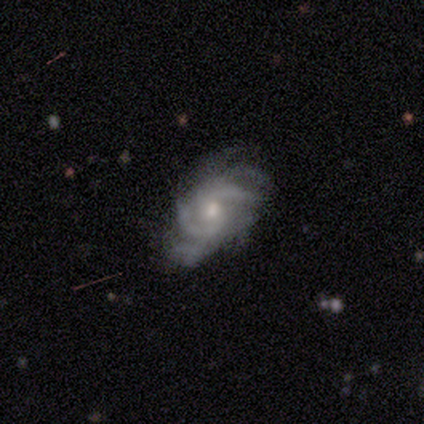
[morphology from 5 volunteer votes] A featured or disk galaxy (100%) with no bar (80%), 2 (60%) medium (40%, tied with loose) spiral arms (100%) and a moderate central bulge (80%).

Vote fractions:
- Smooth or featured? featured or disk: 100% / smooth: 0% / star or artifact: 0%
- Edge-on disk? no: 100% / yes: 0%
- Bar? no: 80% / weak: 20% / strong: 0%
- Spiral arms? yes: 100% / no: 0%
- Spiral winding? medium: 40% (tied) / loose: 40% (tied) / tight: 20%
- Spiral arm count? 2: 60% / 4: 20% / can't tell: 20% / 1: 0% / 3: 0% / more than 4: 0%
- Bulge size? moderate: 80% / small: 20% / dominant: 0% / large: 0% / none: 0%
- Merging? none: 40% (tied) / minor disturbance: 40% (tied) / major disturbance: 20% / merger: 0%